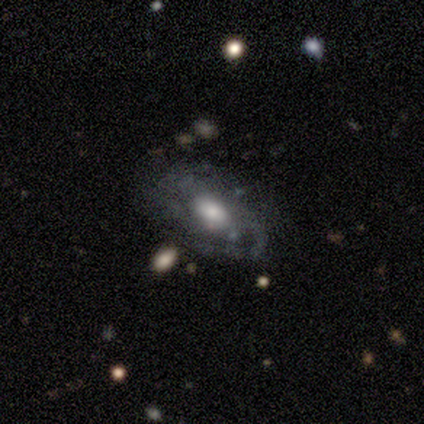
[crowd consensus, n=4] smooth_or_featured: featured or disk (p=0.75) [alt: star or artifact p=0.25]
disk_edge_on: no (p=1.00)
bar: no (p=0.67) [alt: weak p=0.33]
has_spiral_arms: yes (p=0.67) [alt: no p=0.33]
spiral_winding: tight (p=1.00)
spiral_arm_count: 2 (p=0.50) [tied with: can't tell p=0.50]
bulge_size: large (p=0.33) [tied with: moderate p=0.33, small p=0.33]
merging: minor disturbance (p=0.67) [alt: major disturbance p=0.33]